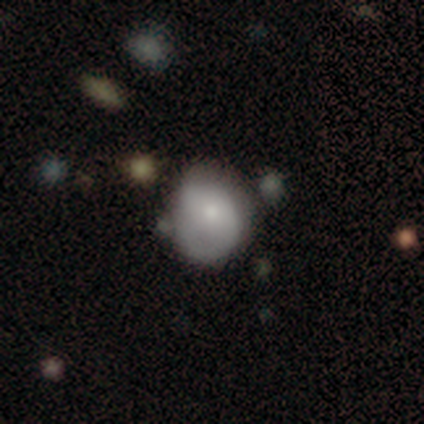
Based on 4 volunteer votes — Morphology: type=smooth (75%); roundness=round (67%); merging=none (75%).